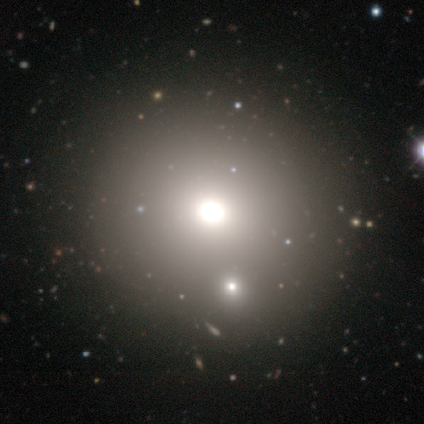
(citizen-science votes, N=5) Smooth or featured? smooth (60%)
How rounded? round (67%)
Merging? none (100%)